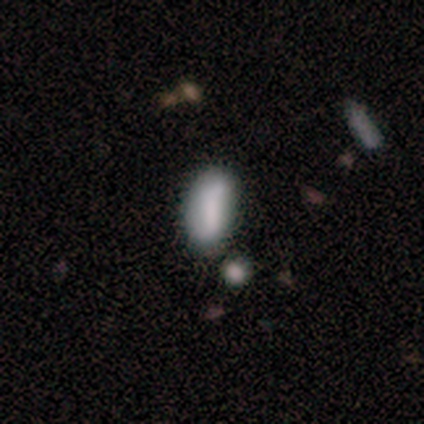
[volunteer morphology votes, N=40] type=smooth (68%); roundness=in between (74%); merging=none (58%).